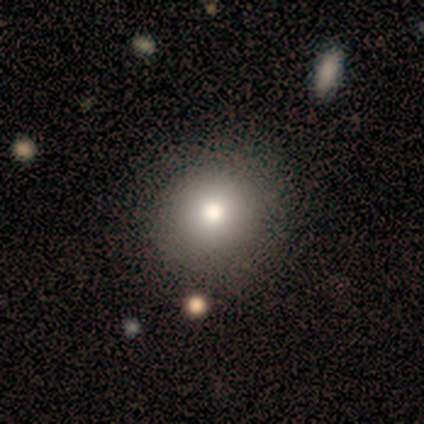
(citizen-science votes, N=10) This is clearly a smooth galaxy (80%). How rounded: clearly round (100%). Merging: likely none (78%).